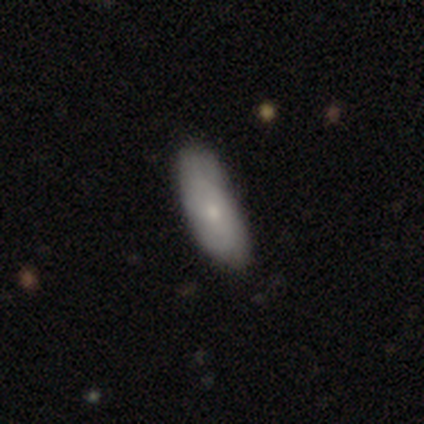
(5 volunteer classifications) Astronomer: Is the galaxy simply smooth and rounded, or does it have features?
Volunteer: smooth — 100%.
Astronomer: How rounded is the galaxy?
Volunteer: in between — 80%.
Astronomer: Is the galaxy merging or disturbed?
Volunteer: none — 60%.